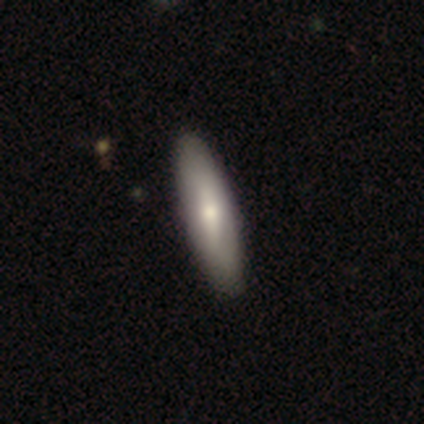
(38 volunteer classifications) Smooth or featured: smooth — 68% (featured or disk — 29%)
How rounded: cigar-shaped — 65% (in between — 35%)
Merging: none — 62% (minor disturbance — 5%)